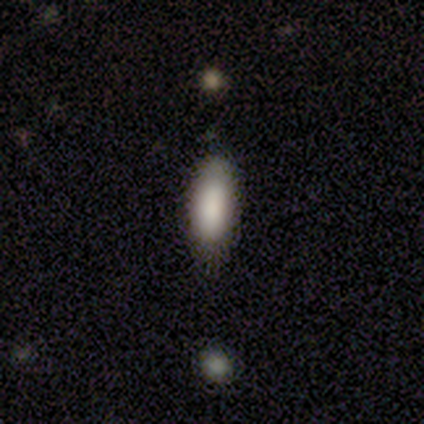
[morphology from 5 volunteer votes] This appears to be a smooth galaxy with no disk features (100%) that is in between round and cigar-shaped (80%). Merging: none (80%).